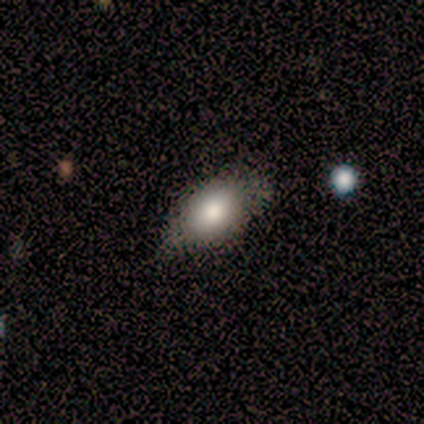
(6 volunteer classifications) Overall: smooth (100%). How rounded: in between (83%). Merging: none (50%, tied with minor disturbance).